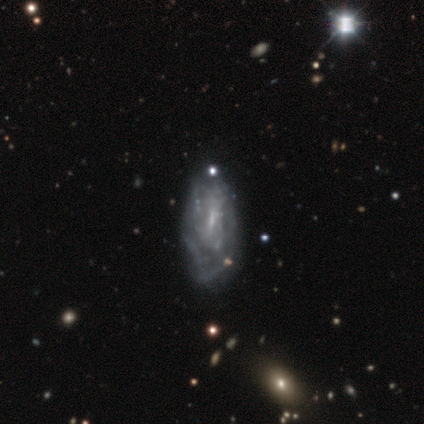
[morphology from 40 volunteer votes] Smooth or featured? 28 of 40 (70%) said featured or disk. Edge-on disk? 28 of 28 (100%) said no. Bar? 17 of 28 (61%) said no. Spiral arms? 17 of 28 (61%) said no. Bulge size? 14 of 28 (50%) said small. Merging? 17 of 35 (49%) said none.